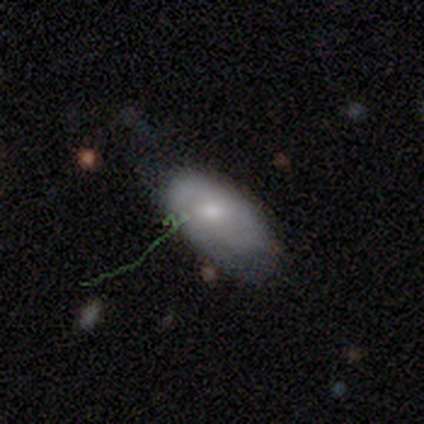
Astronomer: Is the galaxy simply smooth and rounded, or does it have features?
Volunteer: smooth — 63%.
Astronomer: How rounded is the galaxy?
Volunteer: in between — 96%.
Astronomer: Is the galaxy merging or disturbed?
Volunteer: none — 56% (runner-up: minor disturbance, 32%).